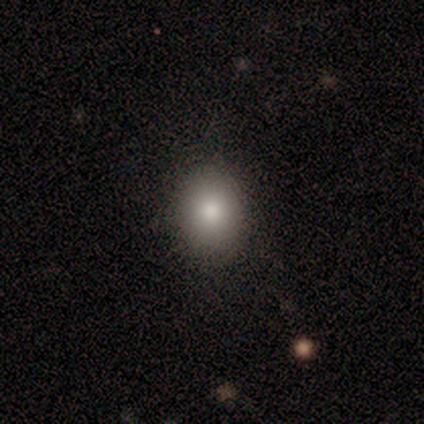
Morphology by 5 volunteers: Q: Smooth or featured?
A: smooth (100%)
Q: How rounded?
A: in between (100%)
Q: Merging?
A: none (100%)